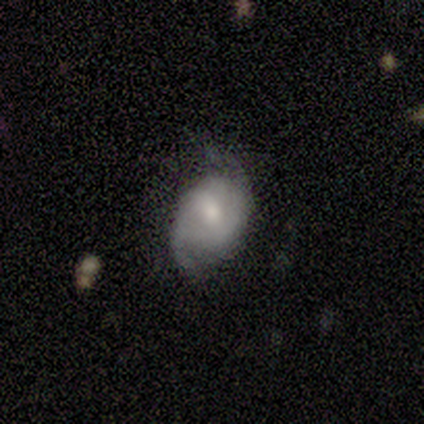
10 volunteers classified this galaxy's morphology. Smooth or featured?
  - featured or disk: 50% *
  - smooth: 40%
  - star or artifact: 10%
Edge-on disk?
  - no: 100% *
  - yes: 0%
Bar?
  - weak: 60% *
  - no: 40%
  - strong: 0%
Spiral arms?
  - yes: 100% *
  - no: 0%
Spiral winding?
  - loose: 60% *
  - medium: 40%
  - tight: 0%
Spiral arm count?
  - 2: 80% *
  - 1: 20%
  - 3: 0%
  - 4: 0%
  - more than 4: 0%
  - can't tell: 0%
Bulge size?
  - small: 60% *
  - moderate: 40%
  - dominant: 0%
  - large: 0%
  - none: 0%
Merging?
  - none: 44% * (tied)
  - minor disturbance: 44% * (tied)
  - major disturbance: 11%
  - merger: 0%